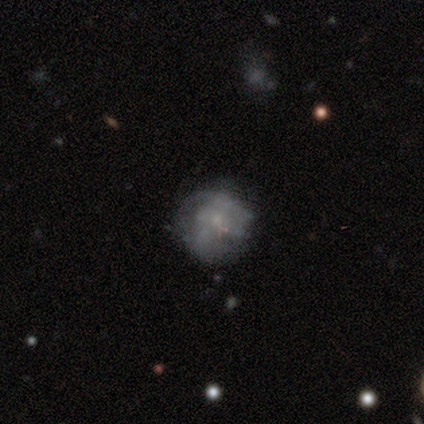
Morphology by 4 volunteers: This is likely a star or artifact rather than a galaxy (75%).